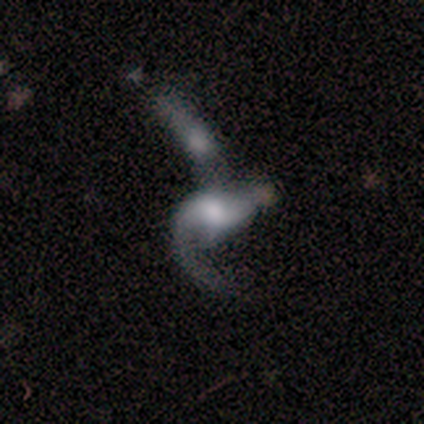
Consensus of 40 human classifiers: Smooth or featured? 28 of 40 (70%) said featured or disk. Edge-on disk? 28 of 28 (100%) said no. Bar? 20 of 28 (71%) said no. Spiral arms? 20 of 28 (71%) said yes. Spiral winding? 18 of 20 (90%) said loose. Spiral arm count? 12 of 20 (60%) said 1. Bulge size? 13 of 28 (46%) said moderate. Merging? 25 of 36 (69%) said merger.